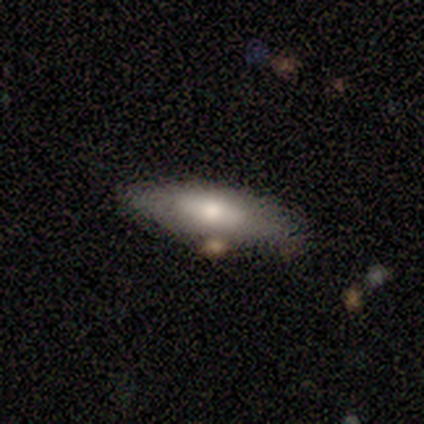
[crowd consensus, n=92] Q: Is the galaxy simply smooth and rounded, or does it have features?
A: smooth — 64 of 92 (70%).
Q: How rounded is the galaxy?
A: in between — 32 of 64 (50%, tied with cigar-shaped).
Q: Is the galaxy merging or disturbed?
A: none — 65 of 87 (75%).